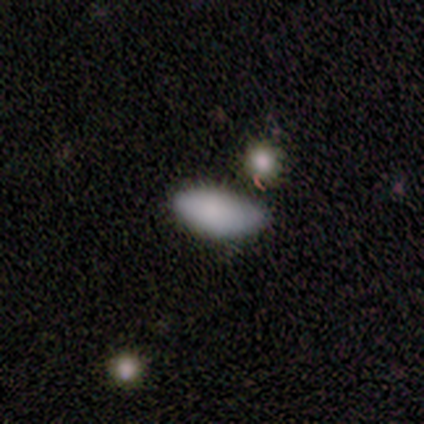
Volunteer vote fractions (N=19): This appears to be a smooth galaxy with no disk features (84%) that is in between round and cigar-shaped (100%). Merging: minor disturbance (50%).